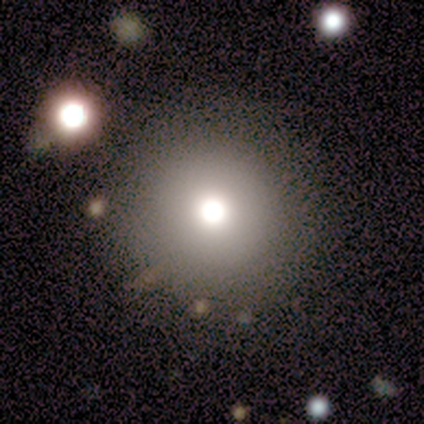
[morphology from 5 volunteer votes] Overall: smooth (80%). How rounded: round (100%). Merging: none (100%).